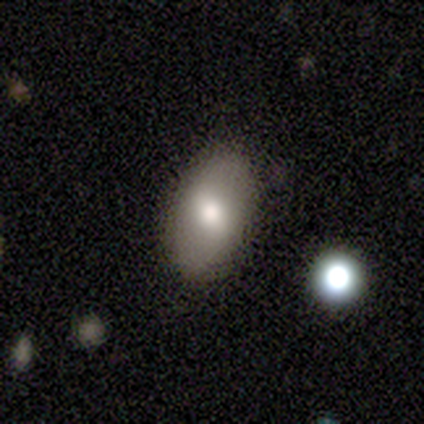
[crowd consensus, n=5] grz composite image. It shows a smooth galaxy with no disk features (100%) that is in between round and cigar-shaped (100%). Merging: none (100%).